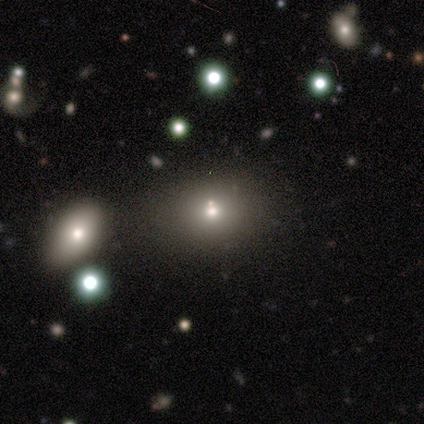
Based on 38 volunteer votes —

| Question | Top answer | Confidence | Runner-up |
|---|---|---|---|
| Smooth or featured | smooth | 68% | star or artifact (24%) |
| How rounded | in between | 62% | round (38%) |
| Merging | none | 66% | merger (28%) |